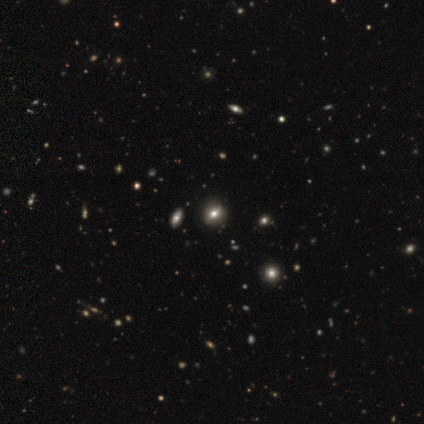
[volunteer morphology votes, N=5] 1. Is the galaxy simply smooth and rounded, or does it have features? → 40% smooth (tied), 40% featured or disk (tied), 20% star or artifact.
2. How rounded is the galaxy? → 50% round (tied), 50% in between (tied), 0% cigar-shaped.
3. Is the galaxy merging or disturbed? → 50% none (tied), 50% minor disturbance (tied), 0% major disturbance, 0% merger.